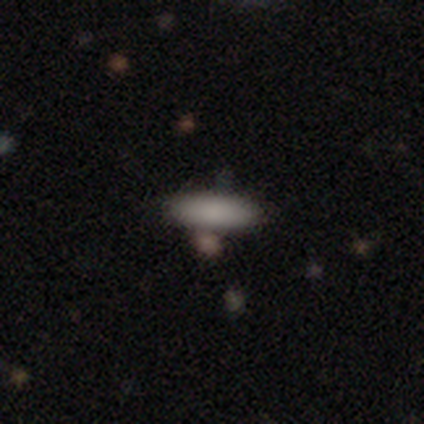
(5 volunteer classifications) This appears to be a smooth galaxy with no disk features (100%) that is in between round and cigar-shaped (60%). Merging: none (80%).